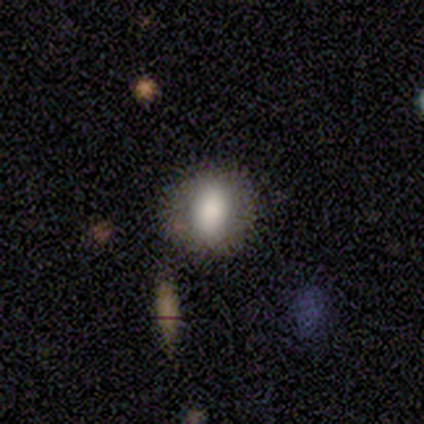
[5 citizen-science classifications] Smooth or featured? 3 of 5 (60%) said smooth. How rounded? 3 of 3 (100%) said in between. Merging? 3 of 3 (100%) said none.